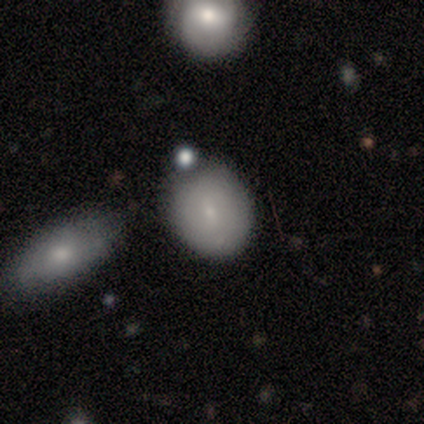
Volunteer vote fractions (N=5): Morphology: type=smooth (100%); roundness=round (60%); merging=none (60%).